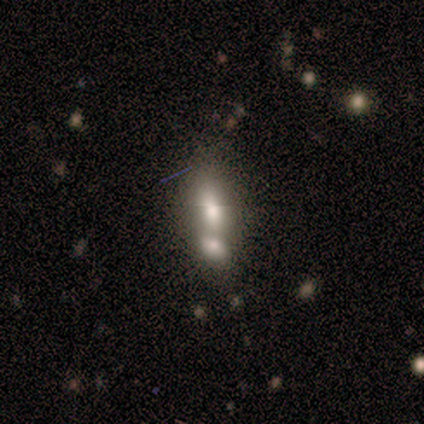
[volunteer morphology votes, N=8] Smooth or featured? 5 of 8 (62%) said smooth. How rounded? 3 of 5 (60%) said in between. Merging? 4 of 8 (50%, tied with merger) said none.